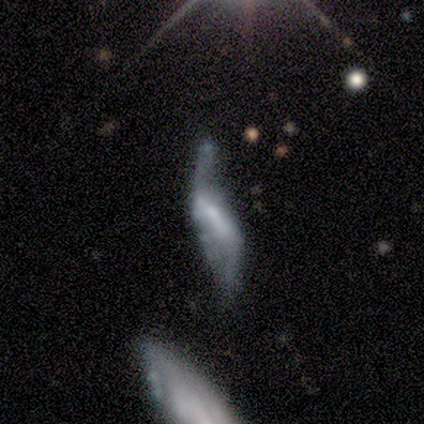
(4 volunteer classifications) This appears to be a smooth galaxy with no disk features (50%, tied with featured or disk) that is cigar-shaped (100%). Merging: none (75%).